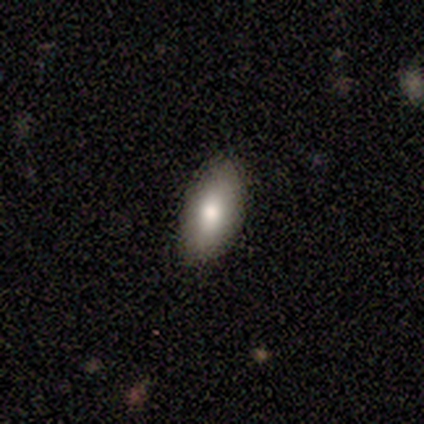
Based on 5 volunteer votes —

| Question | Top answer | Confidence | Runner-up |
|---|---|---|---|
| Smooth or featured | smooth | 100% | — |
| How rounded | in between | 100% | — |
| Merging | none | 100% | — |